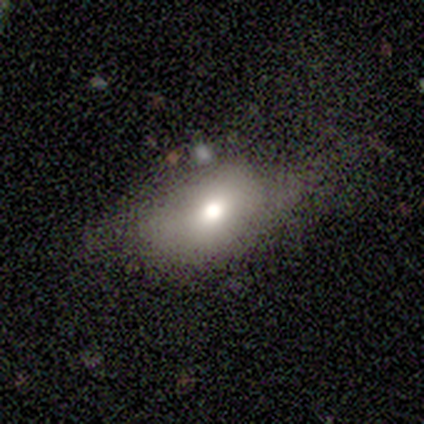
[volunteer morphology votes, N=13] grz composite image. It shows a smooth galaxy with no disk features (69%) that is in between round and cigar-shaped (100%). Merging: none (82%).